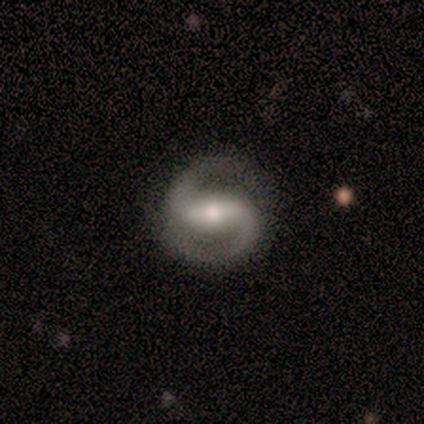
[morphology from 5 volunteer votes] Smooth or featured: featured or disk — 100%
Edge-on disk: no — 100%
Bar: no — 60% (strong — 20%)
Spiral arms: yes — 100%
Spiral winding: loose — 60% (medium — 40%)
Spiral arm count: 2 — 100%
Bulge size: small — 60% (moderate — 40%)
Merging: none — 100%